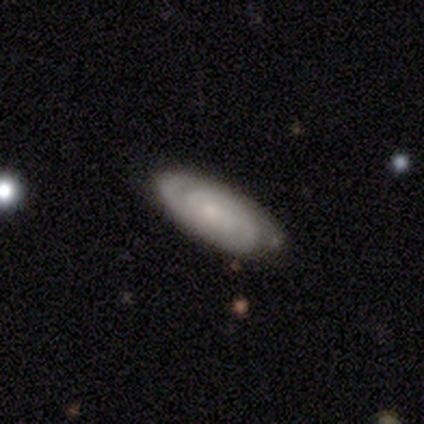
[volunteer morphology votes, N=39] Volunteers were most divided on "spiral arm count": 2: 48%, can't tell: 29%, 3: 14%, 1: 5%, 4: 5%, more than 4: 0%. More confident: spiral arms — yes (91%); edge-on disk — no (88%); merging — none (81%); bar — no (78%); spiral winding — tight (76%); bulge size — small (74%); smooth or featured — featured or disk (67%).